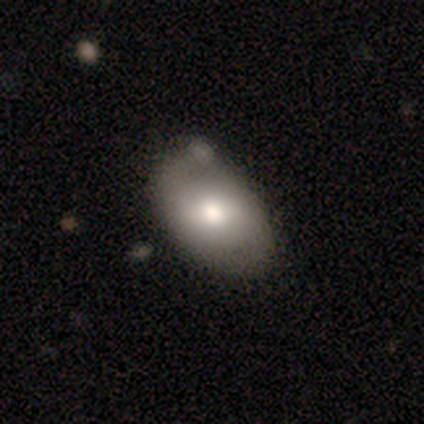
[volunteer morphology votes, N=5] smooth-or-featured: smooth: 40% (tied) | featured or disk: 40% (tied) | star or artifact: 20%
  how-rounded: in between: 100% | round: 0% | cigar-shaped: 0%
  merging: none: 50% | minor disturbance: 25% | merger: 25% | major disturbance: 0%